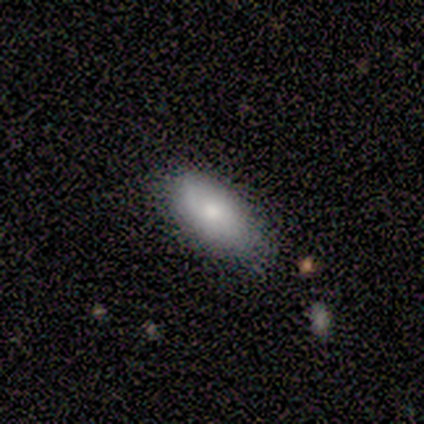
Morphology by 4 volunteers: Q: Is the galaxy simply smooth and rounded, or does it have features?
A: smooth — 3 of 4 (75%).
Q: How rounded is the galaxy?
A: in between — 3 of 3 (100%).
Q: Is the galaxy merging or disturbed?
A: none — 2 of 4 (50%).